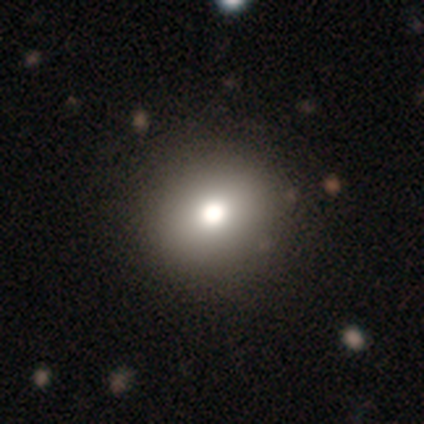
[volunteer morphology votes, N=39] smooth_or_featured: smooth (p=0.82) [alt: featured or disk p=0.13]
how_rounded: round (p=0.91) [alt: in between p=0.09]
merging: none (p=0.62) [alt: merger p=0.03]